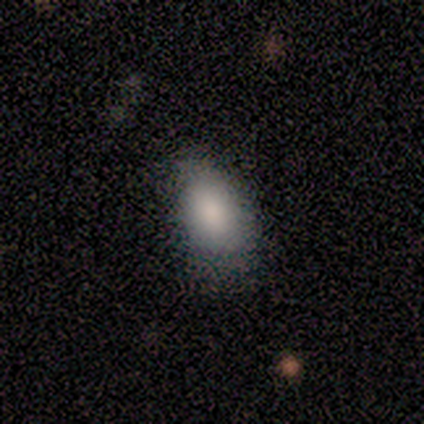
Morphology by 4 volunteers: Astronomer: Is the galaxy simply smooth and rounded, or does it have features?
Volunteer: smooth — 100%.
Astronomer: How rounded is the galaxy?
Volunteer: in between — 75%.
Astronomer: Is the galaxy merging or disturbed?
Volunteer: none — 75%.